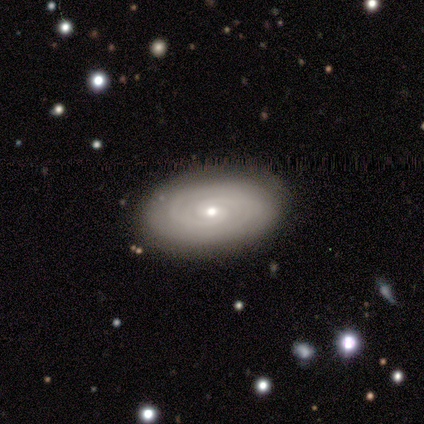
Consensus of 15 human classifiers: Morphology: type=featured or disk (93%); edge-on=no (100%); bar=no (64%); spiral arms=yes (86%); winding=tight (100%); arm count=can't tell (50%); bulge=small (64%); merging=none (93%).